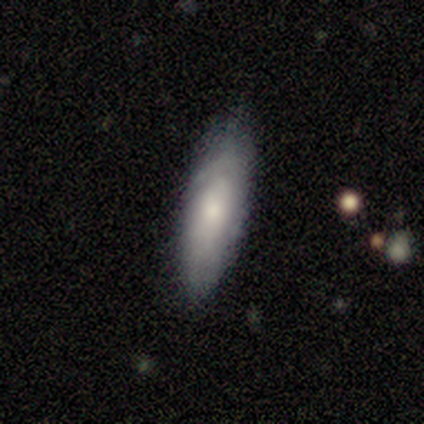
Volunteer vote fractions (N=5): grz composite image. It shows a smooth galaxy with no disk features (60%) that is cigar-shaped (100%). Merging: none (60%).